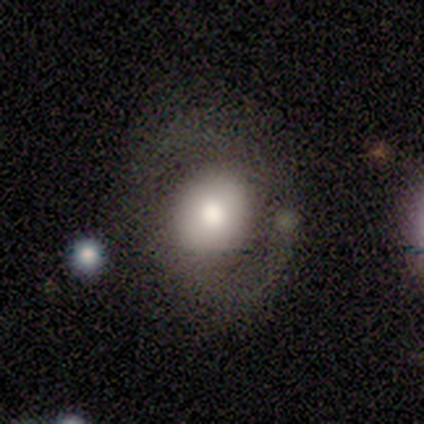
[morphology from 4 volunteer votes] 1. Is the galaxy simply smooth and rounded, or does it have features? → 50% smooth (tied), 50% featured or disk (tied), 0% star or artifact.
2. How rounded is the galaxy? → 100% round, 0% in between, 0% cigar-shaped.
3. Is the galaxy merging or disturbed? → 50% none, 25% minor disturbance, 25% major disturbance, 0% merger.